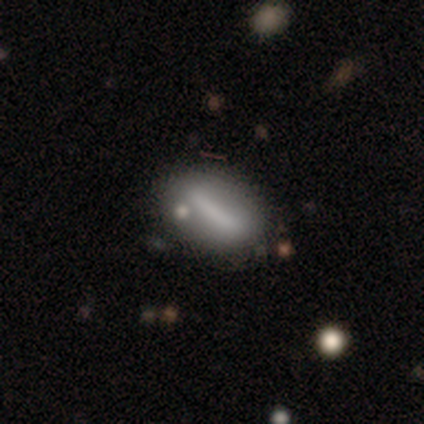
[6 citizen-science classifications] A smooth galaxy with no disk features (67%) that is in between round and cigar-shaped (50%, tied with cigar-shaped).

Vote fractions:
- Smooth or featured? smooth: 67% / featured or disk: 33% / star or artifact: 0%
- How rounded? in between: 50% (tied) / cigar-shaped: 50% (tied) / round: 0%
- Merging? none: 83% / merger: 17% / minor disturbance: 0% / major disturbance: 0%